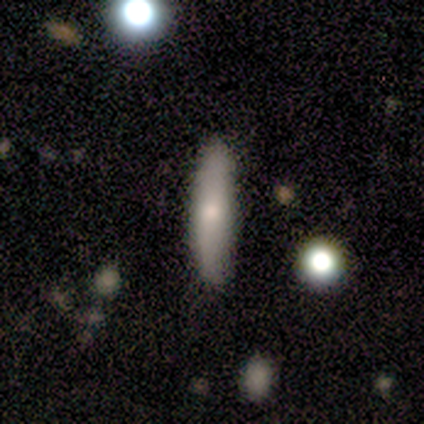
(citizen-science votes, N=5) Volunteers were most divided on "smooth or featured" (2-way tie): smooth: 40%, star or artifact: 40%, featured or disk: 20%. More confident: how rounded — cigar-shaped (100%); merging — none (100%).